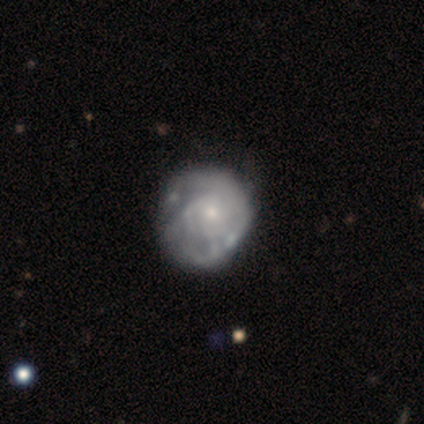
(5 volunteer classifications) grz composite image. It shows a featured or disk galaxy (80%) with no bar (50%), 2 (50%, tied with can't tell) tight (50%, tied with medium) spiral arms (50%, tied with no) and a small central bulge (75%). Merging: none (60%).